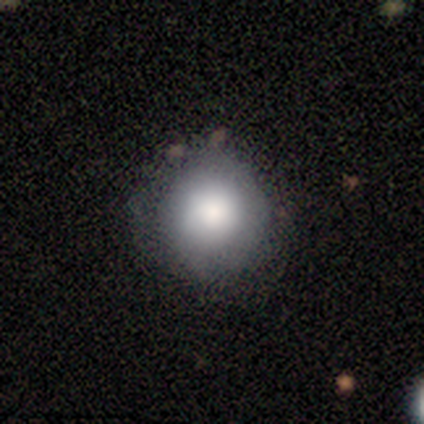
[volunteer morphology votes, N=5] This appears to be a smooth galaxy with no disk features (60%) that is round (100%). Merging: minor disturbance (75%).